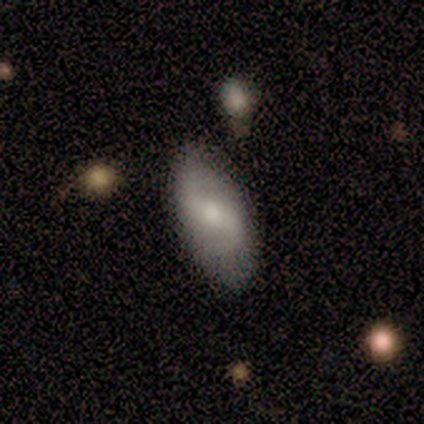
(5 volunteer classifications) featured or disk 80%, smooth 20%, star or artifact 0%. Down the decision tree: edge-on disk — no (100%); bar — strong (75%); spiral arms — yes (100%); spiral arm count — 2 (100%); spiral winding — medium (50%, tied with loose); bulge size — moderate (50%, tied with small); merging — none (60%).